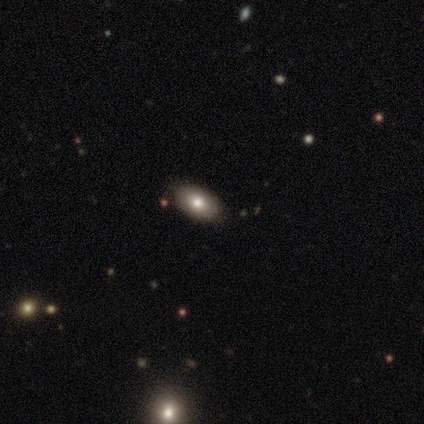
smooth_or_featured: smooth (p=0.60) [alt: featured or disk p=0.40]
how_rounded: in between (p=1.00)
merging: none (p=1.00)